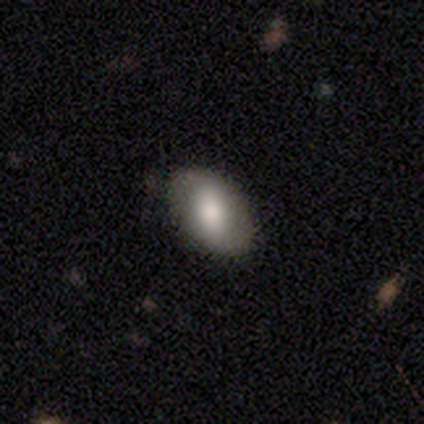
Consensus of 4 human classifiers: A smooth galaxy with no disk features (50%, tied with featured or disk) that is in between round and cigar-shaped (100%). Merging: none (75%).